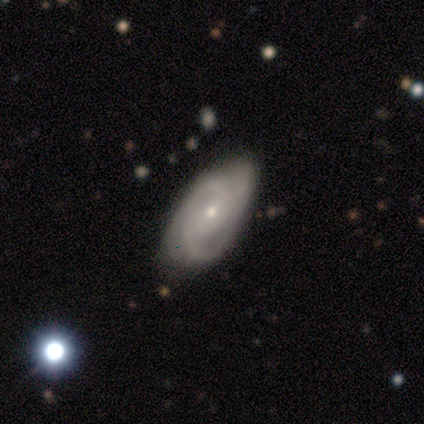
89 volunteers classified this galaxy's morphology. type=featured or disk (73%); edge-on=no (91%); bar=no (53%); spiral arms=yes (95%); winding=medium (52%); arm count=3 (50%); bulge=small (90%); merging=none (68%).